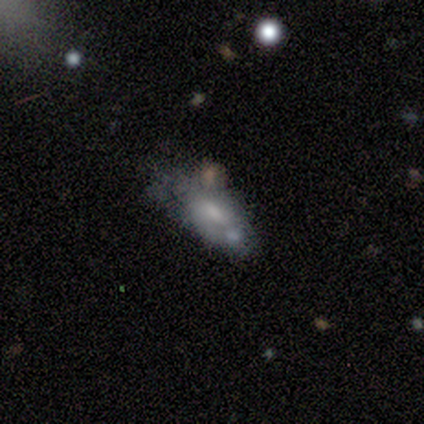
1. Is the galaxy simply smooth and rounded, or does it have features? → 80% featured or disk, 20% smooth, 0% star or artifact.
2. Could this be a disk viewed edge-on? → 100% no, 0% yes.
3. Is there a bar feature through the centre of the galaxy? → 50% weak (tied), 50% no (tied), 0% strong.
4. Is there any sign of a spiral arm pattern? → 75% no, 25% yes.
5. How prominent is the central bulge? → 75% moderate, 25% small, 0% dominant, 0% large, 0% none.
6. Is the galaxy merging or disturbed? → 40% minor disturbance (tied), 40% merger (tied), 20% major disturbance, 0% none.